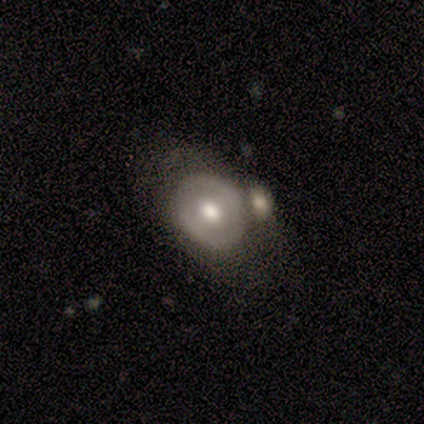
A smooth galaxy with no disk features (51%) that is round (63%). Merging: none (32%).